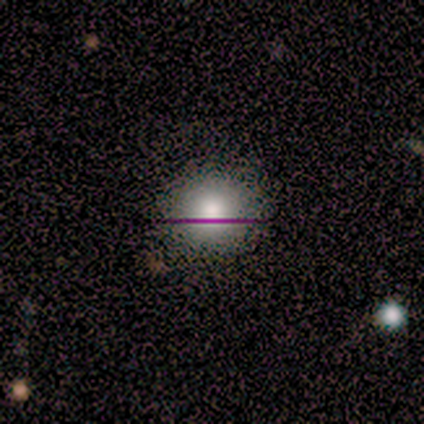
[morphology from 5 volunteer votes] Q: Smooth or featured?
A: smooth (100%)
Q: How rounded?
A: round (80%); runner-up: in between (20%)
Q: Merging?
A: none (100%)